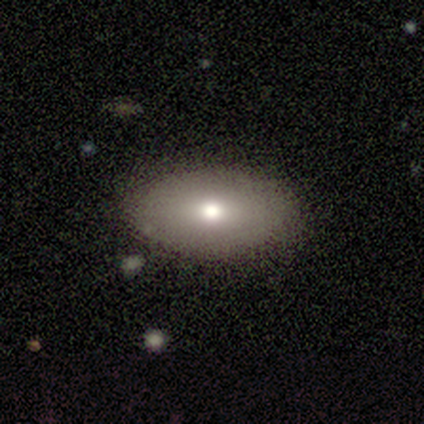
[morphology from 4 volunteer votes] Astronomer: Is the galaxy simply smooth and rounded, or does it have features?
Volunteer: smooth — 75%.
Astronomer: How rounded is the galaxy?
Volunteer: in between — 100%.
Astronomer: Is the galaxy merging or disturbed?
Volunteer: none — 100%.